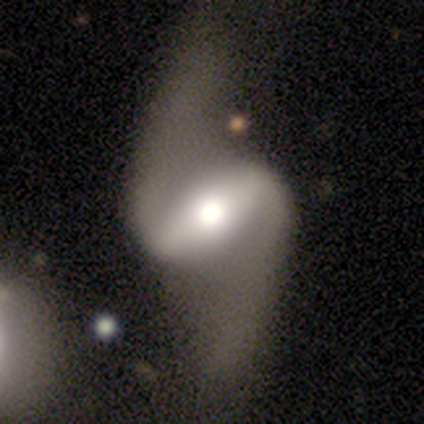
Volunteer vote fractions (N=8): Smooth or featured: featured or disk — 100%
Edge-on disk: no — 100%
Bar: strong — 88% (weak — 12%)
Spiral arms: yes — 100%
Spiral winding: loose — 88% (medium — 12%)
Spiral arm count: 2 — 100%
Bulge size: moderate — 75% (large — 25%)
Merging: minor disturbance — 62% (none — 38%)